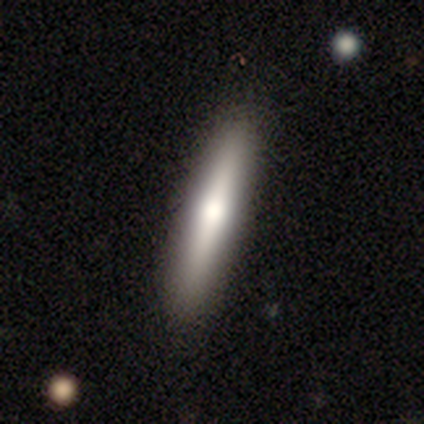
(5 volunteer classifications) This is likely a smooth galaxy (60%). How rounded: clearly cigar-shaped (100%). Merging: clearly none (100%).